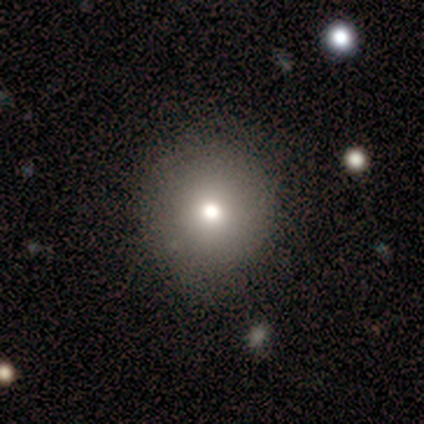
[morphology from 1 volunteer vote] This is clearly a featured or disk galaxy (100%). It is clearly not viewed edge-on (100%). Bar: clearly strong (100%). Spiral arm pattern: clearly no (100%). Central bulge: clearly moderate (100%). Merging: clearly none (100%).